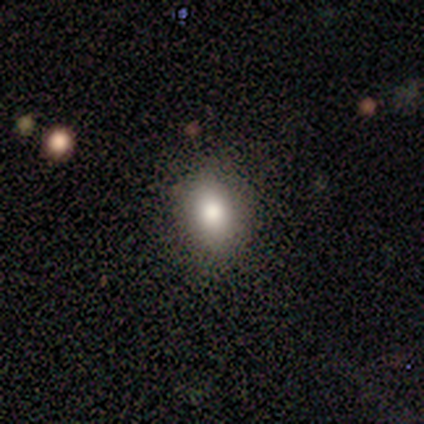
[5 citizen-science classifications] This is clearly a smooth galaxy (80%). How rounded: likely in between (75%). Merging: clearly none (80%).